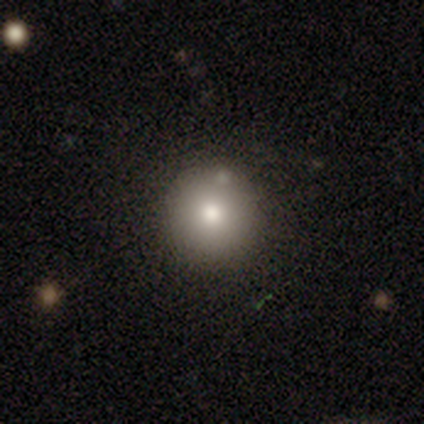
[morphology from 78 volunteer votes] This is clearly a smooth galaxy (85%). How rounded: clearly round (100%). Merging: marginally none (42%).